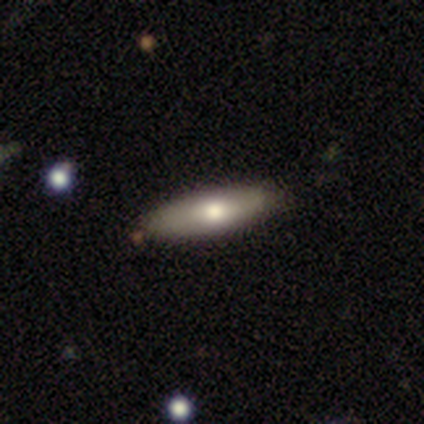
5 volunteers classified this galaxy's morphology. A smooth galaxy with no disk features (100%) that is cigar-shaped (80%). Merging: none (100%).